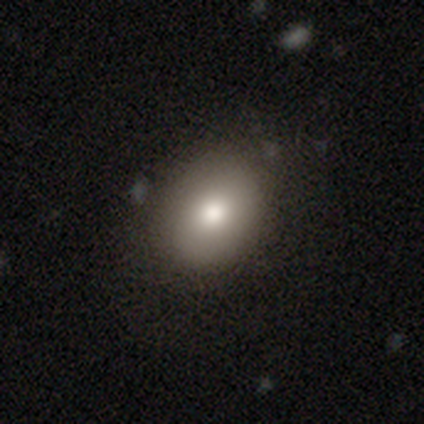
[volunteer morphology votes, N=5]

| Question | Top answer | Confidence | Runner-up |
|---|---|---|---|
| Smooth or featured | smooth | 60% | featured or disk (40%) |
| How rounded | round | 67% | in between (33%) |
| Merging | none | 80% | minor disturbance (20%) |